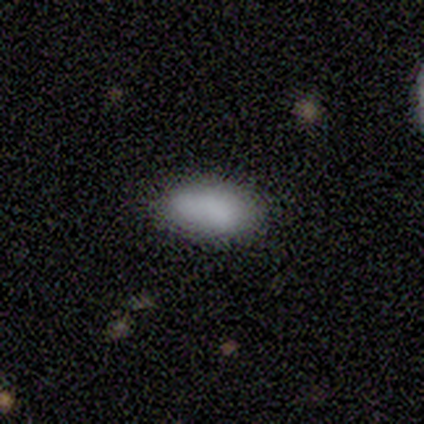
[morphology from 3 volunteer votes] Overall: smooth (100%). How rounded: in between (100%). Merging: none (67%; merger 33%).